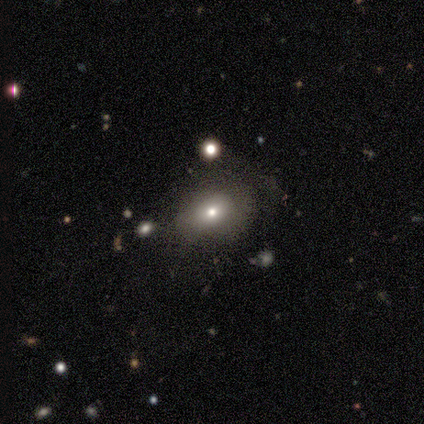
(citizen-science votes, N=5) Morphology: type=smooth (80%); roundness=in between (75%); merging=none (80%).